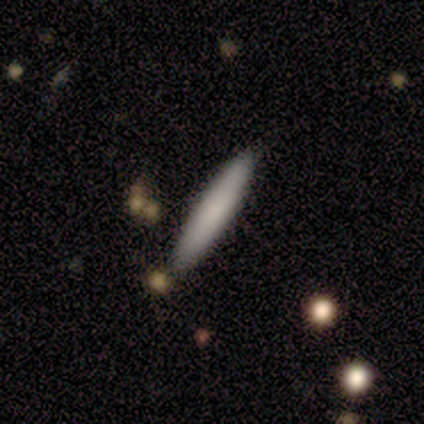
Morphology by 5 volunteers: This is clearly a smooth galaxy (100%). How rounded: clearly cigar-shaped (80%). Merging: clearly none (80%).